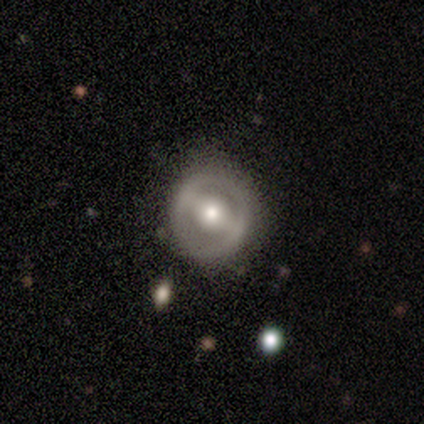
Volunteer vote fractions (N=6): Morphology: type=featured or disk (67%); edge-on=no (100%); bar=strong (75%); spiral arms=no (100%); bulge=moderate (50%); merging=none (60%).